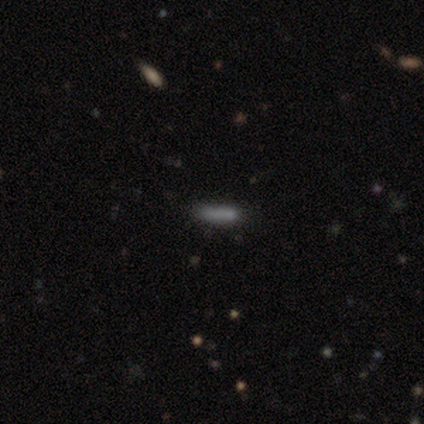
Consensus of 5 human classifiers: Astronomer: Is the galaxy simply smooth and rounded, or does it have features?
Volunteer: smooth — 100%.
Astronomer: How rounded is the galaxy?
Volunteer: cigar-shaped — 80%.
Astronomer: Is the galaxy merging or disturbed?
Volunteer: none — 100%.